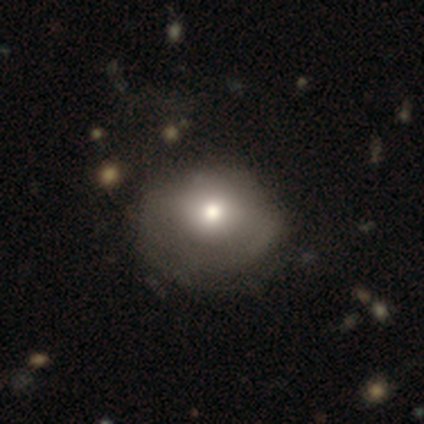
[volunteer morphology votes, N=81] type=smooth (63%); roundness=round (53%); merging=minor disturbance (21%).